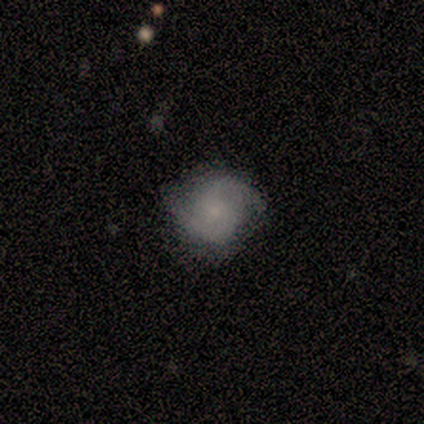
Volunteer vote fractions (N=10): smooth_or_featured: featured or disk (p=0.60) [alt: star or artifact p=0.30]
disk_edge_on: no (p=1.00)
bar: no (p=0.83) [alt: weak p=0.17]
has_spiral_arms: yes (p=1.00)
spiral_winding: loose (p=0.50) [alt: medium p=0.33]
spiral_arm_count: 2 (p=1.00)
bulge_size: small (p=0.83) [alt: moderate p=0.17]
merging: none (p=0.71) [alt: minor disturbance p=0.29]